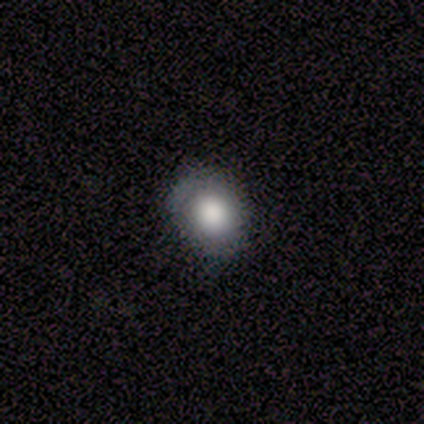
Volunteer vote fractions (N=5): This appears to be a smooth galaxy with no disk features (60%) that is in between round and cigar-shaped (67%). Merging: none (67%).